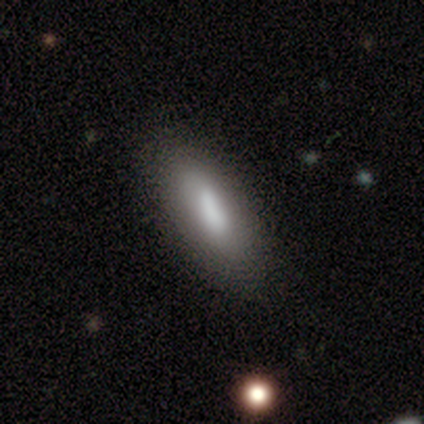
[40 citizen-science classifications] A smooth galaxy with no disk features (70%) that is in between round and cigar-shaped (75%).

Vote fractions:
- Smooth or featured? smooth: 70% / featured or disk: 28% / star or artifact: 2%
- How rounded? in between: 75% / cigar-shaped: 25% / round: 0%
- Merging? none: 87% / minor disturbance: 8% / major disturbance: 5% / merger: 0%